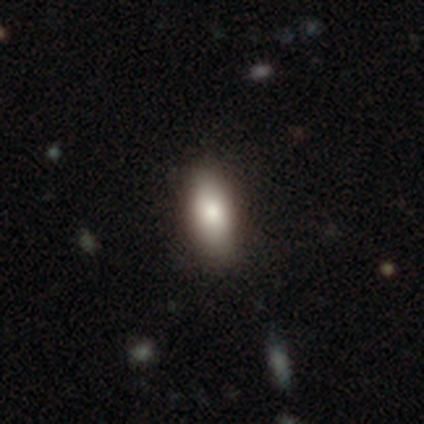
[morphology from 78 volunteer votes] Overall: smooth (76%). How rounded: in between (80%). Merging: none (50%).